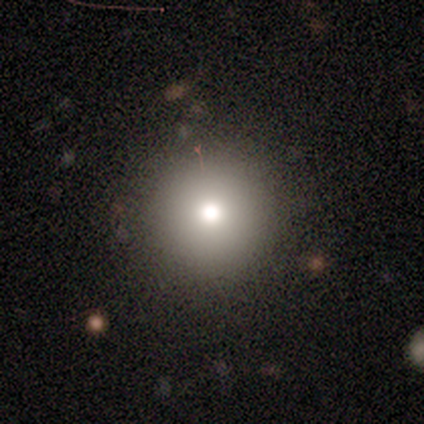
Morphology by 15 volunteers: Smooth or featured: smooth — 73% (star or artifact — 20%)
How rounded: round — 100%
Merging: none — 92% (minor disturbance — 8%)